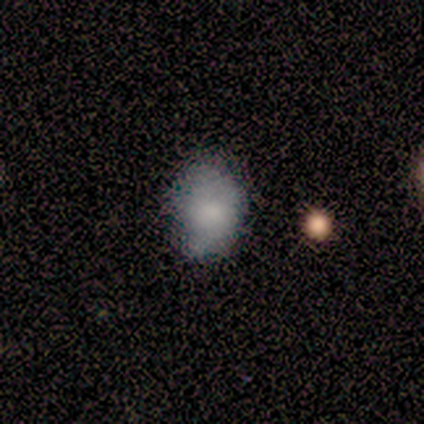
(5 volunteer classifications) smooth_or_featured: smooth (p=1.00)
how_rounded: in between (p=0.60) [alt: round p=0.40]
merging: none (p=0.60) [alt: minor disturbance p=0.40]